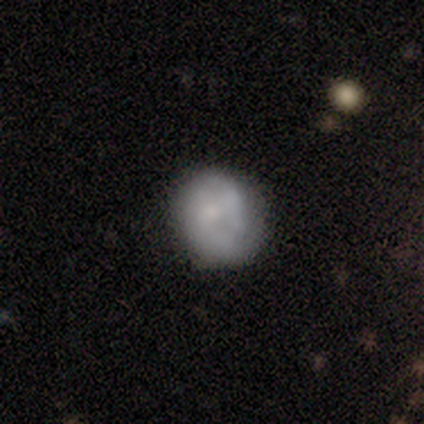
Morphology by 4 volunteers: smooth-or-featured: smooth: 50% (tied) | featured or disk: 50% (tied) | star or artifact: 0%
  how-rounded: round: 100% | in between: 0% | cigar-shaped: 0%
  merging: none: 50% | minor disturbance: 25% | major disturbance: 25% | merger: 0%